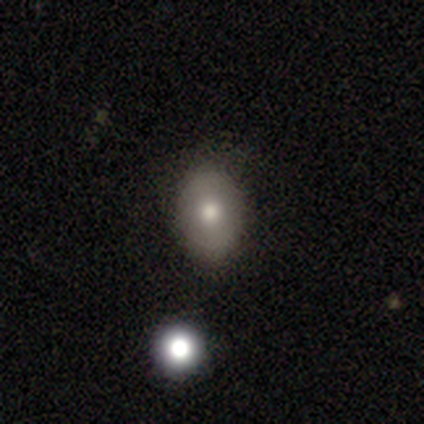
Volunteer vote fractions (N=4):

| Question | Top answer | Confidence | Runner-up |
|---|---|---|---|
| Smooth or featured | smooth | 50% | featured or disk (25%) |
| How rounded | in between | 100% | — |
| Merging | none | 100% | — |